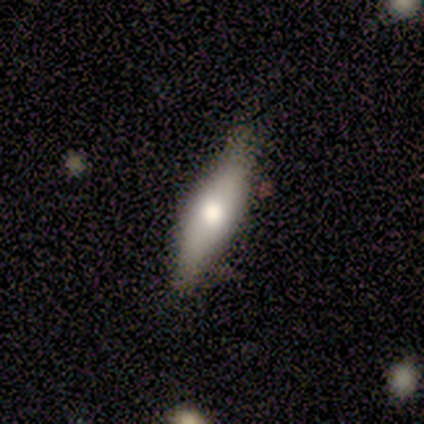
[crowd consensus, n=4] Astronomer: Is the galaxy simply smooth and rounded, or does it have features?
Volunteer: featured or disk — 75%.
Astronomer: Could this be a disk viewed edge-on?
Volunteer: yes — 100%.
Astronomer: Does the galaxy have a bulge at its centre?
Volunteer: rounded — 100%.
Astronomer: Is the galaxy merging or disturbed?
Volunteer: none — 50%, tied with minor disturbance at 50%.